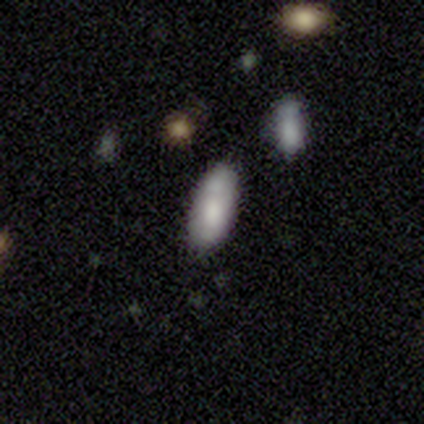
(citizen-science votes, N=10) A smooth galaxy with no disk features (90%) that is in between round and cigar-shaped (78%).

Vote fractions:
- Smooth or featured? smooth: 90% / featured or disk: 10% / star or artifact: 0%
- How rounded? in between: 78% / round: 11% / cigar-shaped: 11%
- Merging? none: 70% / minor disturbance: 20% / merger: 10% / major disturbance: 0%